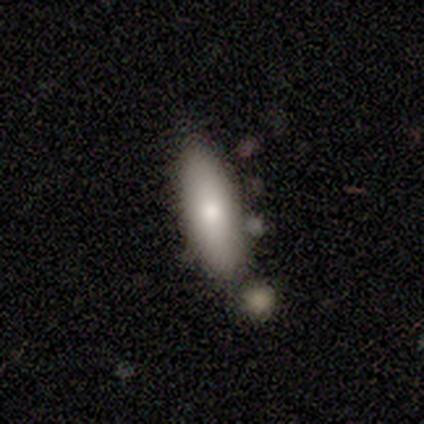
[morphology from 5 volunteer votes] Smooth or featured? 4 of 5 (80%) said smooth. How rounded? 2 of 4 (50%, tied with cigar-shaped) said in between. Merging? 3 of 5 (60%) said none.